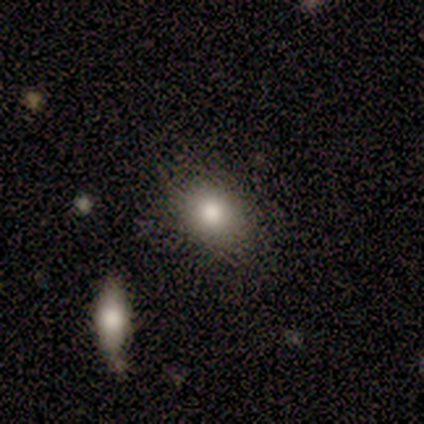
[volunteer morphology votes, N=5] A smooth galaxy with no disk features (100%) that is in between round and cigar-shaped (60%).

Vote fractions:
- Smooth or featured? smooth: 100% / featured or disk: 0% / star or artifact: 0%
- How rounded? in between: 60% / round: 40% / cigar-shaped: 0%
- Merging? none: 100% / minor disturbance: 0% / major disturbance: 0% / merger: 0%